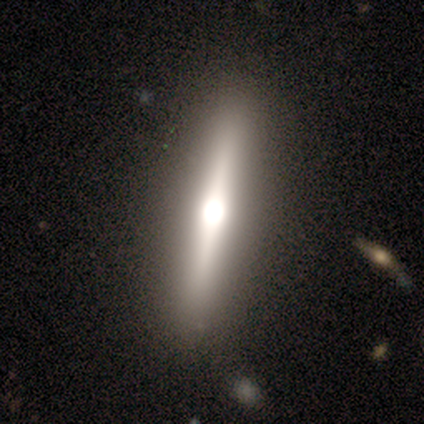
featured or disk 80%, smooth 20%, star or artifact 0%. Down the decision tree: edge-on disk — yes (100%); edge-on bulge — rounded (75%); merging — none (100%).